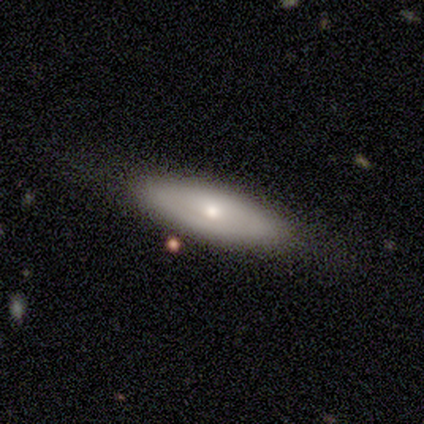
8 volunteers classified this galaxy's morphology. Q: Smooth or featured?
A: smooth (62%); runner-up: featured or disk (38%)
Q: How rounded?
A: cigar-shaped (60%); runner-up: in between (40%)
Q: Merging?
A: none (100%)